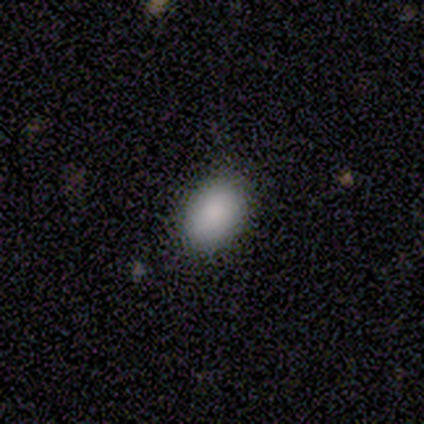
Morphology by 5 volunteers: type=smooth (60%); roundness=in between (67%); merging=none (67%).